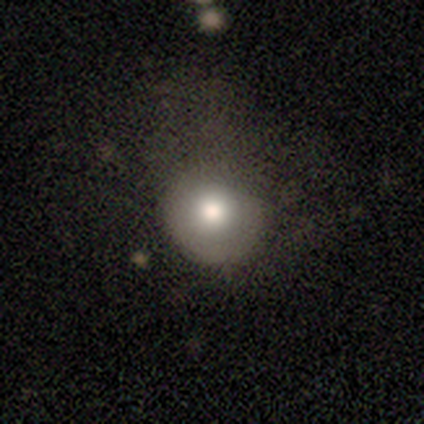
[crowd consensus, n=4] Smooth or featured? smooth (100%)
How rounded? round (100%)
Merging? minor disturbance (75%)